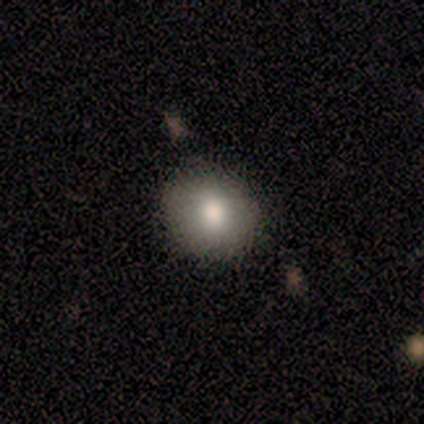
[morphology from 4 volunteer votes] smooth-or-featured: smooth: 100% | featured or disk: 0% | star or artifact: 0%
  how-rounded: round: 75% | in between: 25% | cigar-shaped: 0%
  merging: none: 100% | minor disturbance: 0% | major disturbance: 0% | merger: 0%